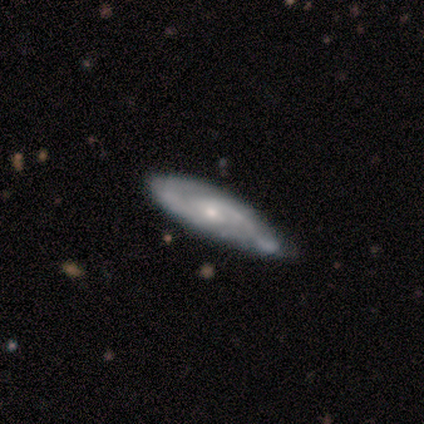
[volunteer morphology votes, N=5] Overall: featured or disk (80%). Edge-on disk: yes (50%, tied with no). Edge-on bulge: none (50%, tied with rounded). Merging: none (80%).